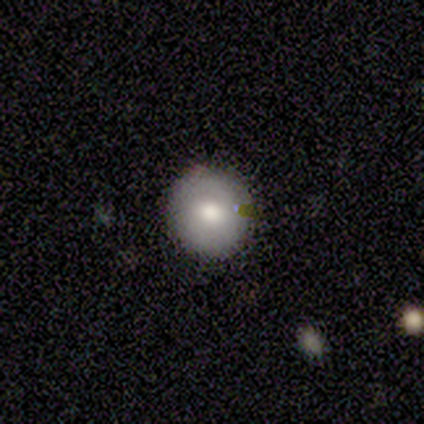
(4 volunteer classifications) Morphology: type=smooth (100%); roundness=round (100%); merging=none (100%).